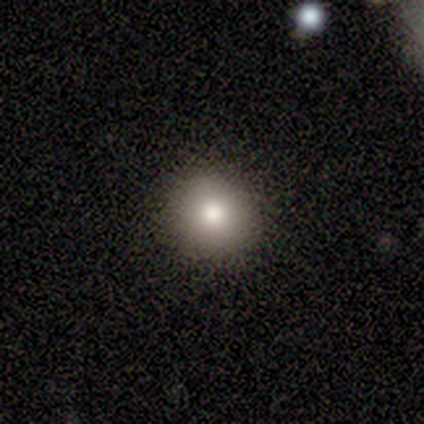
Q: Smooth or featured?
A: featured or disk (60%); runner-up: smooth (40%)
Q: Edge-on disk?
A: yes (67%); runner-up: no (33%)
Q: Edge-on bulge?
A: rounded (100%)
Q: Merging?
A: none (80%); runner-up: minor disturbance (20%)